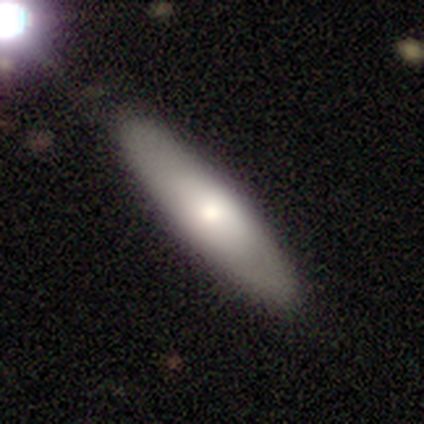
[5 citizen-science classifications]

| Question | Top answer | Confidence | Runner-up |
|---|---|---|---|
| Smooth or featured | smooth | 40% | tied: star or artifact (40%) |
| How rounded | cigar-shaped | 100% | — |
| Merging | none | 67% | minor disturbance (33%) |